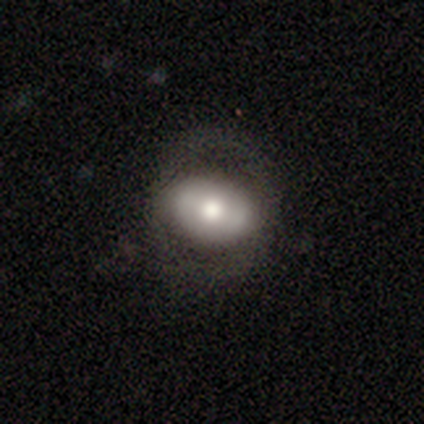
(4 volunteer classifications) Smooth or featured: smooth — 75% (featured or disk — 25%)
How rounded: in between — 100%
Merging: none — 50% (minor disturbance — 25%)